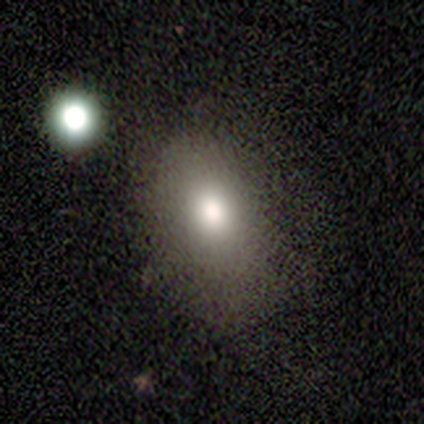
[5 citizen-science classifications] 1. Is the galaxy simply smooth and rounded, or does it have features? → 100% smooth, 0% featured or disk, 0% star or artifact.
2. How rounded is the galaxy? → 80% in between, 20% round, 0% cigar-shaped.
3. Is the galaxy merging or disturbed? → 100% none, 0% minor disturbance, 0% major disturbance, 0% merger.